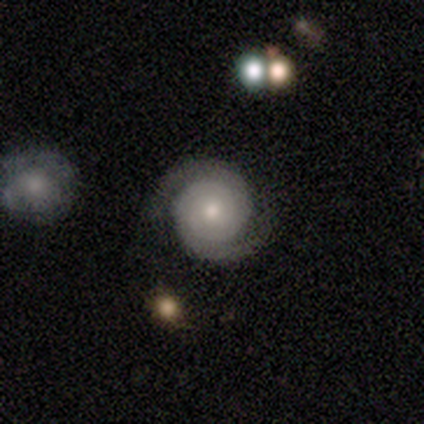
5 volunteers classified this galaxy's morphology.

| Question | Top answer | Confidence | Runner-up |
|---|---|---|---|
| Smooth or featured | featured or disk | 100% | — |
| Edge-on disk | no | 100% | — |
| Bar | no | 100% | — |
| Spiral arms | yes | 100% | — |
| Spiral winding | tight | 100% | — |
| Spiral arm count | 2 | 80% | 3 (20%) |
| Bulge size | moderate | 60% | small (40%) |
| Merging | none | 80% | major disturbance (20%) |